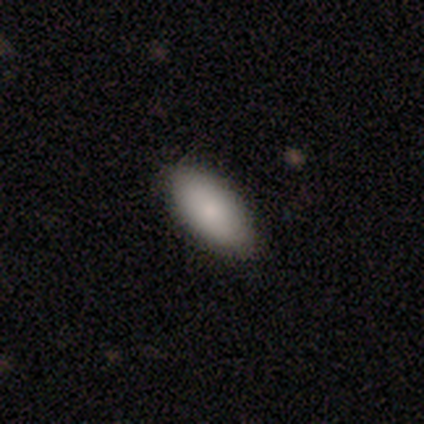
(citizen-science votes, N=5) Q: Smooth or featured?
A: smooth (100%)
Q: How rounded?
A: in between (80%); runner-up: cigar-shaped (20%)
Q: Merging?
A: none (100%)